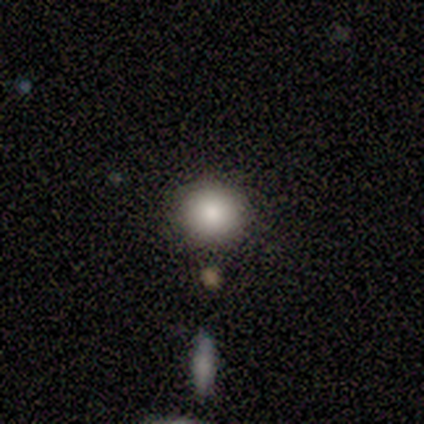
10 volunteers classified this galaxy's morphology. Smooth or featured: smooth — 90% (featured or disk — 10%)
How rounded: round — 89% (in between — 11%)
Merging: none — 80% (minor disturbance — 20%)